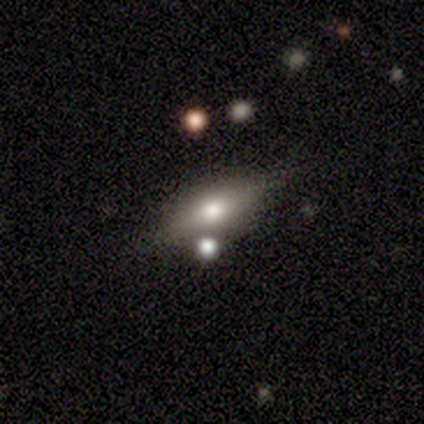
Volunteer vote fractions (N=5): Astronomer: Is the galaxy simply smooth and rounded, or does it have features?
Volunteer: featured or disk — 60% (runner-up: smooth, 40%).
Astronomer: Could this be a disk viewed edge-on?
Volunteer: yes — 67%.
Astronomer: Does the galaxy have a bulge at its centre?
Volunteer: rounded — 100%.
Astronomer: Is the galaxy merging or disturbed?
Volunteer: none — 40%, tied with merger at 40%.